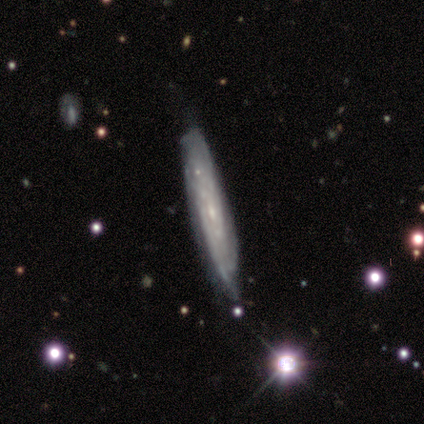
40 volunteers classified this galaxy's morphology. Smooth or featured? featured or disk (90%)
Edge-on disk? no (58%)
Bar? no (71%)
Spiral arms? yes (90%)
Spiral winding? tight (58%)
Spiral arm count? can't tell (84%)
Bulge size? small (81%)
Merging? none (63%)